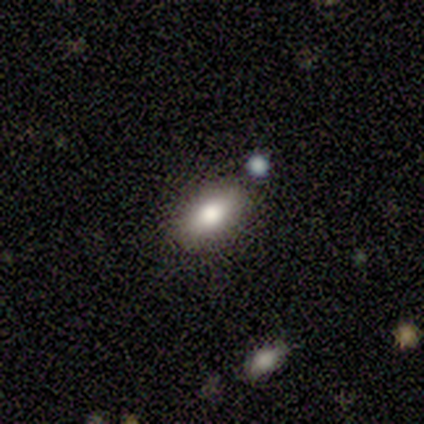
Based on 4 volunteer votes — A smooth galaxy with no disk features (100%) that is in between round and cigar-shaped (100%). Merging: none (100%).